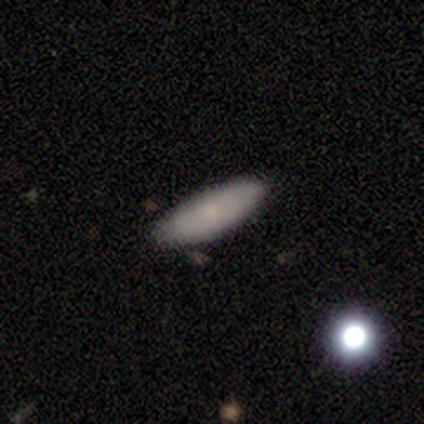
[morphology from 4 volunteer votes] type=smooth (75%); roundness=cigar-shaped (67%); merging=none (100%).